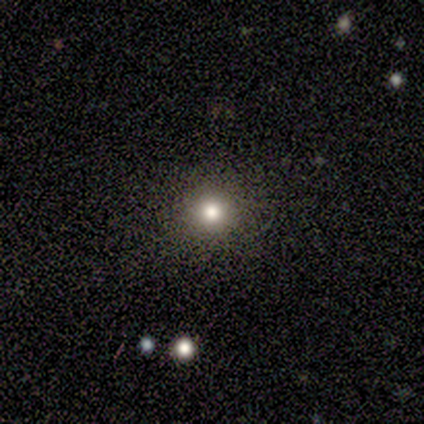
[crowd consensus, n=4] A smooth galaxy with no disk features (75%) that is round (67%).

Vote fractions:
- Smooth or featured? smooth: 75% / star or artifact: 25% / featured or disk: 0%
- How rounded? round: 67% / in between: 33% / cigar-shaped: 0%
- Merging? none: 100% / minor disturbance: 0% / major disturbance: 0% / merger: 0%